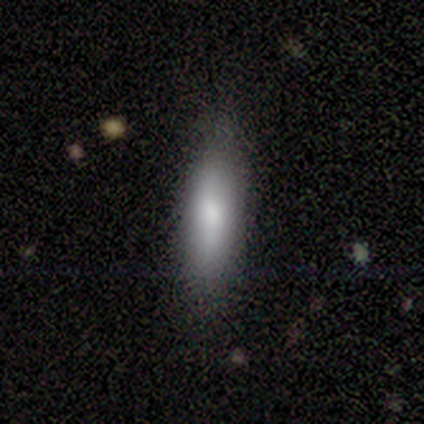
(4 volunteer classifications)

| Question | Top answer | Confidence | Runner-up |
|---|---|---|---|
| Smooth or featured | smooth | 100% | — |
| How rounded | cigar-shaped | 75% | in between (25%) |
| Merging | none | 75% | minor disturbance (25%) |